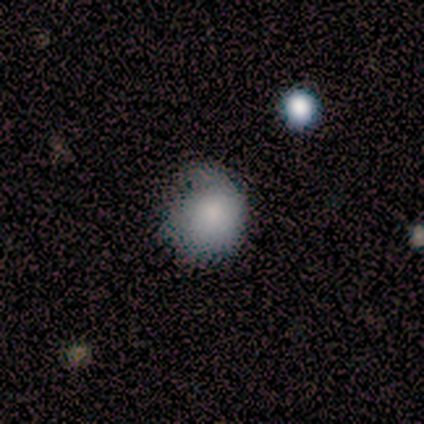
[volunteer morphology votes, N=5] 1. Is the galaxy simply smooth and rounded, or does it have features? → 40% smooth (tied), 40% featured or disk (tied), 20% star or artifact.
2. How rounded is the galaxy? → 50% round (tied), 50% in between (tied), 0% cigar-shaped.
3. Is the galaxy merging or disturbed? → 75% none, 25% minor disturbance, 0% major disturbance, 0% merger.